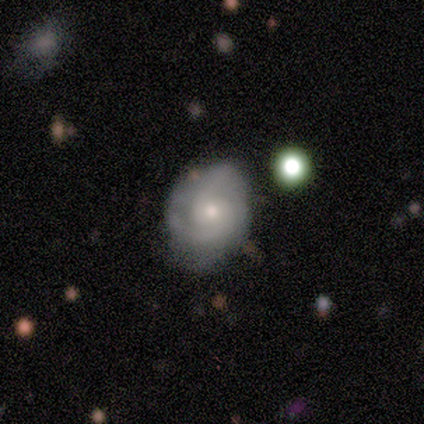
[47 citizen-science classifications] Smooth or featured? featured or disk (77%)
Edge-on disk? no (100%)
Bar? no (78%)
Spiral arms? yes (92%)
Spiral winding? medium (52%)
Spiral arm count? 2 (85%)
Bulge size? moderate (61%)
Merging? none (53%)